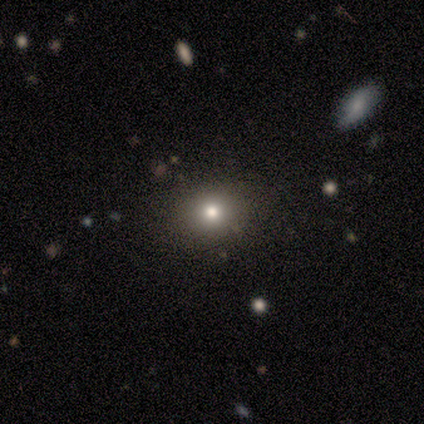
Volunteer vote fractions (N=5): smooth_or_featured: smooth (p=1.00)
how_rounded: round (p=0.40) [tied with: in between p=0.40]
merging: none (p=0.60) [alt: minor disturbance p=0.20]